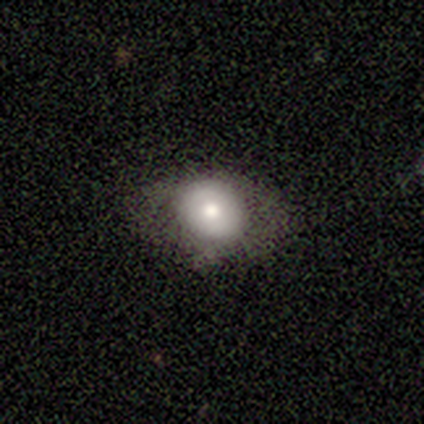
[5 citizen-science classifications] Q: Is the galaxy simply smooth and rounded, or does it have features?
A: smooth — 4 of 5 (80%).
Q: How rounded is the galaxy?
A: round — 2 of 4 (50%, tied with in between).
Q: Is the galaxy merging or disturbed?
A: none — 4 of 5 (80%).